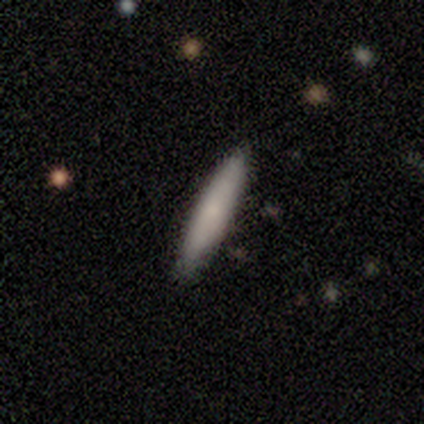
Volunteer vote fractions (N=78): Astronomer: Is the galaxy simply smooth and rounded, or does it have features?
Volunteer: smooth — 79%.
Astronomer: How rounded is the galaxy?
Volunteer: cigar-shaped — 94%.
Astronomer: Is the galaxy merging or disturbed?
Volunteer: none — 43%.